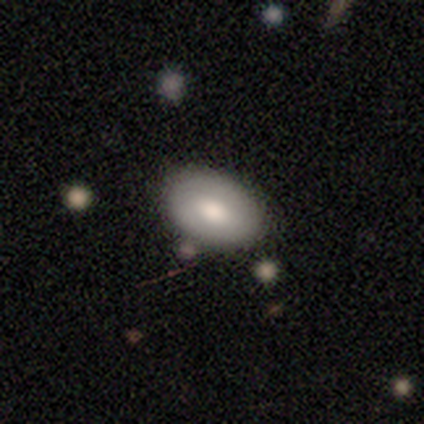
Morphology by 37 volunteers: Smooth or featured?
  - smooth: 70% *
  - featured or disk: 24%
  - star or artifact: 5%
How rounded?
  - in between: 88% *
  - round: 8%
  - cigar-shaped: 4%
Merging?
  - none: 71% *
  - minor disturbance: 17%
  - merger: 9%
  - major disturbance: 3%